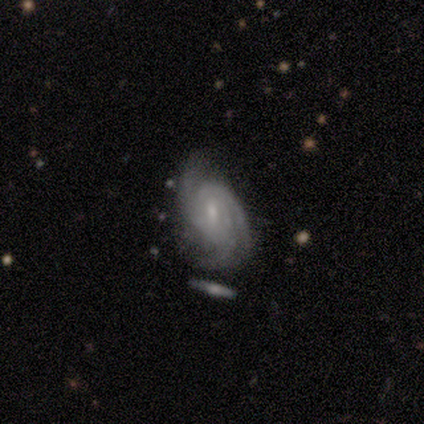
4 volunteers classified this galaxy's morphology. Q: Smooth or featured?
A: featured or disk (75%); runner-up: star or artifact (25%)
Q: Edge-on disk?
A: no (100%)
Q: Bar?
A: no (67%); runner-up: weak (33%)
Q: Spiral arms?
A: yes (100%)
Q: Spiral winding?
A: medium (100%)
Q: Spiral arm count?
A: 3 (100%)
Q: Bulge size?
A: small (67%); runner-up: moderate (33%)
Q: Merging?
A: none (67%); runner-up: merger (33%)